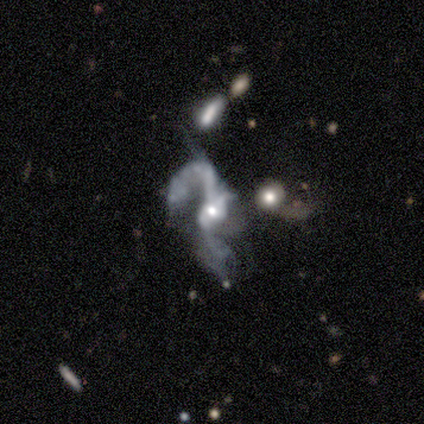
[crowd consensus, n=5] smooth_or_featured: featured or disk (p=0.80) [alt: smooth p=0.20]
disk_edge_on: no (p=1.00)
bar: no (p=0.50) [alt: strong p=0.25]
has_spiral_arms: yes (p=0.75) [alt: no p=0.25]
spiral_winding: loose (p=1.00)
spiral_arm_count: 2 (p=0.67) [alt: can't tell p=0.33]
bulge_size: small (p=1.00)
merging: major disturbance (p=0.60) [alt: minor disturbance p=0.20]